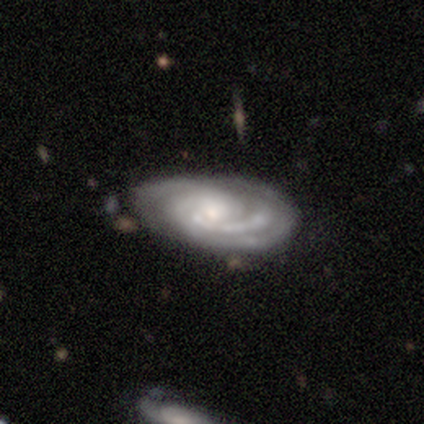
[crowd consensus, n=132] Volunteers were most divided on "bulge size": moderate: 47%, small: 44%, none: 6%, large: 2%, dominant: 1%. Remaining: spiral arms — yes (98%); edge-on disk — no (96%); smooth or featured — featured or disk (95%); spiral winding — tight (75%); merging — none (72%); bar — no (69%); spiral arm count — 3 (46%).